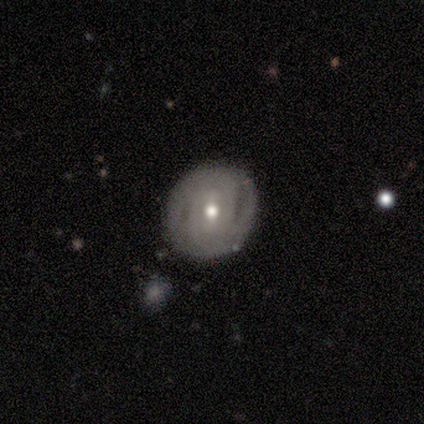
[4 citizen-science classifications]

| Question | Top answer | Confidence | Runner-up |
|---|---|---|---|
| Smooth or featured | featured or disk | 75% | smooth (25%) |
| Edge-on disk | no | 100% | — |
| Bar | no | 67% | weak (33%) |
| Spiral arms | yes | 67% | no (33%) |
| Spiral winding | tight | 100% | — |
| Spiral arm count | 3 | 50% | tied: can't tell (50%) |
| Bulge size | moderate | 67% | small (33%) |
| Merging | none | 100% | — |